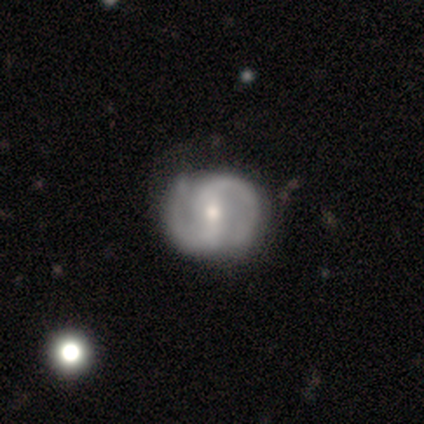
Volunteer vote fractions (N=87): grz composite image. It shows a featured or disk galaxy (86%) with a strong bar (38%, tied with weak), 2 (94%) medium (54%) spiral arms (95%) and a small central bulge (61%). Merging: none (86%).